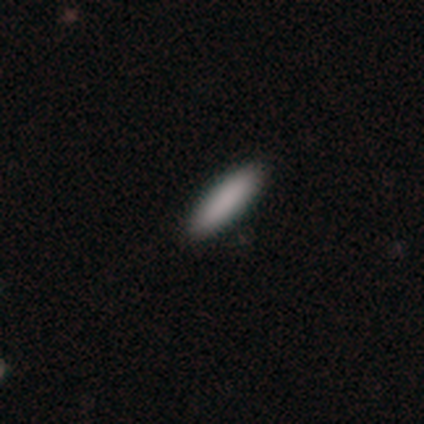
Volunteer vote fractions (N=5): Q: Smooth or featured?
A: smooth (80%); runner-up: star or artifact (20%)
Q: How rounded?
A: cigar-shaped (75%); runner-up: in between (25%)
Q: Merging?
A: none (75%); runner-up: minor disturbance (25%)